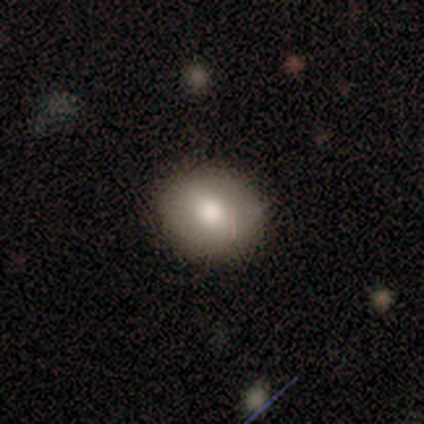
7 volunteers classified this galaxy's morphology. Smooth or featured? smooth (86%)
How rounded? round (83%)
Merging? none (71%)